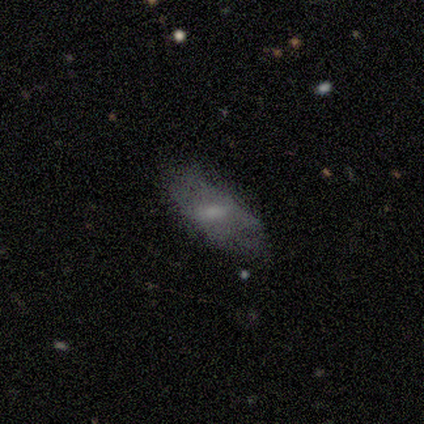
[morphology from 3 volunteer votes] type=smooth (67%); roundness=in between (100%); merging=none (100%).